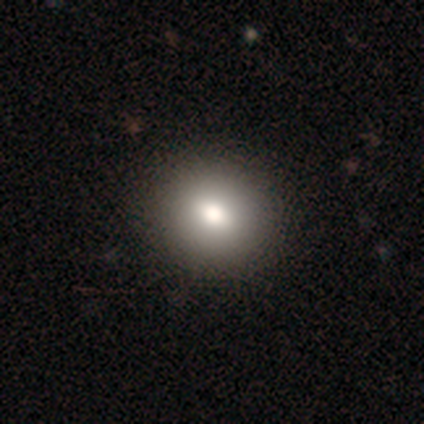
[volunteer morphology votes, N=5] smooth-or-featured: smooth: 60% | featured or disk: 20% | star or artifact: 20%
  how-rounded: round: 100% | in between: 0% | cigar-shaped: 0%
  merging: none: 100% | minor disturbance: 0% | major disturbance: 0% | merger: 0%